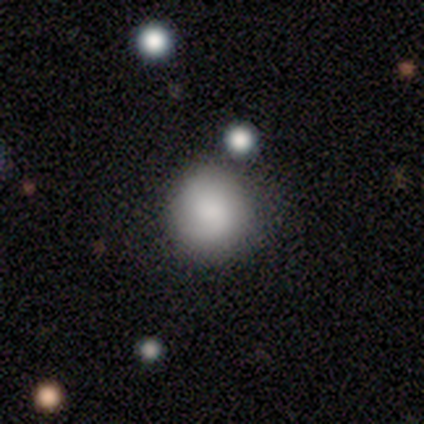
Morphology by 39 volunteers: A smooth galaxy with no disk features (82%) that is round (97%). Merging: none (46%).